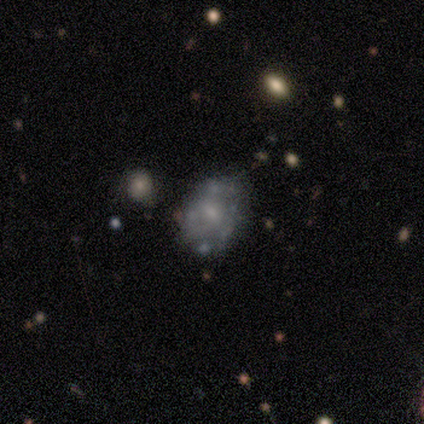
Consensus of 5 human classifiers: Smooth or featured? featured or disk (100%)
Edge-on disk? no (100%)
Bar? no (100%)
Spiral arms? no (80%)
Bulge size? small (40%, tied with none)
Merging? none (100%)